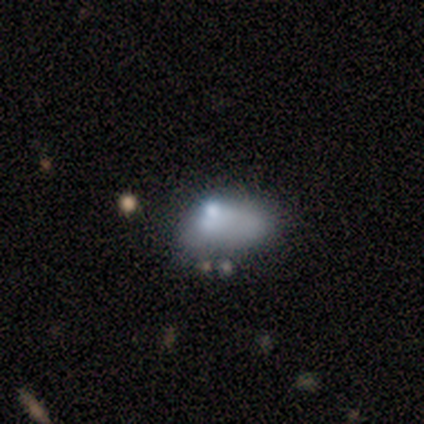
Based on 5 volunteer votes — Smooth or featured: star or artifact — 60% (smooth — 20%)